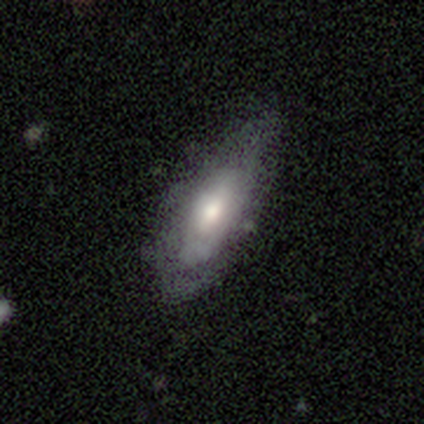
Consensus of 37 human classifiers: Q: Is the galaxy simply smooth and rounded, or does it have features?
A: smooth — 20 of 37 (54%).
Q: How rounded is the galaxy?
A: in between — 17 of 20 (85%).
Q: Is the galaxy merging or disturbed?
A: none — 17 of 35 (49%, tied with minor disturbance).